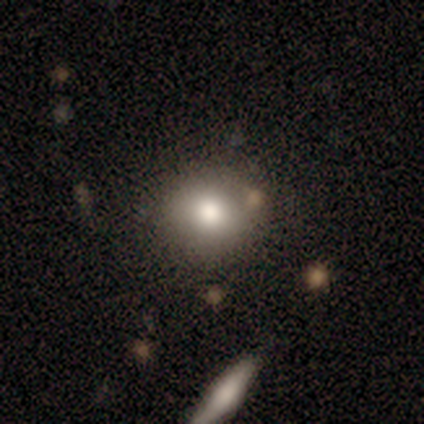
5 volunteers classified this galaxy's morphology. This appears to be a smooth galaxy with no disk features (60%) that is round (67%). Merging: none (100%).